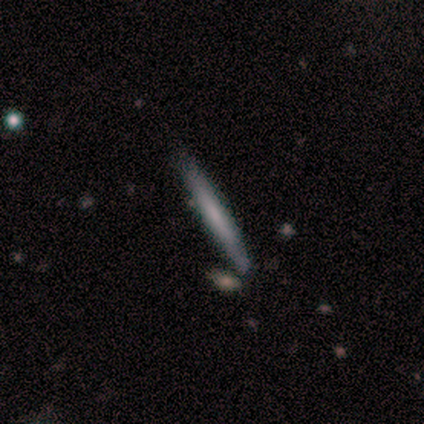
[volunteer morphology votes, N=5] A featured or disk galaxy (80%) viewed edge-on (100%) with no central bulge (100%).

Vote fractions:
- Smooth or featured? featured or disk: 80% / star or artifact: 20% / smooth: 0%
- Edge-on disk? yes: 100% / no: 0%
- Edge-on bulge? none: 100% / boxy: 0% / rounded: 0%
- Merging? none: 100% / minor disturbance: 0% / major disturbance: 0% / merger: 0%